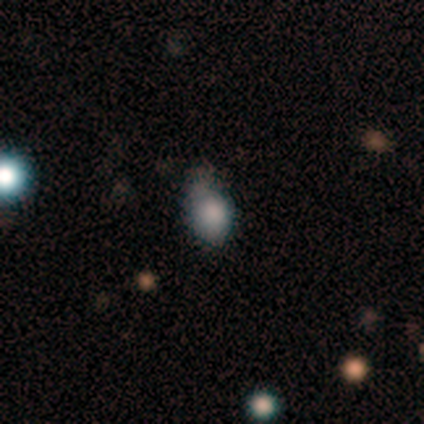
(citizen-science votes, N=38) Volunteers were most divided on "merging" (2-way tie): none: 35%, minor disturbance: 35%, major disturbance: 26%, merger: 3%. More confident: how rounded — in between (81%); smooth or featured — smooth (68%).